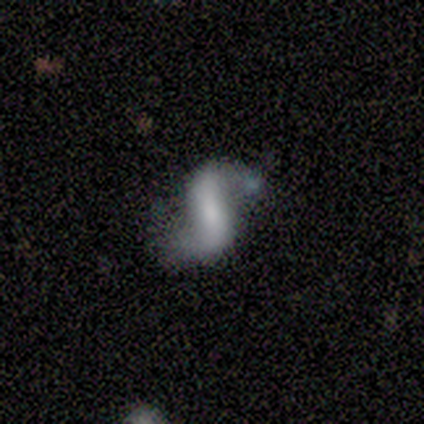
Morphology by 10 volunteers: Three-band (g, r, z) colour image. It shows a featured or disk galaxy (100%) with a strong bar (44%, tied with no), 2 (100%) loose (78%) spiral arms (100%) and a moderate central bulge (33%, tied with none). Merging: none (70%).